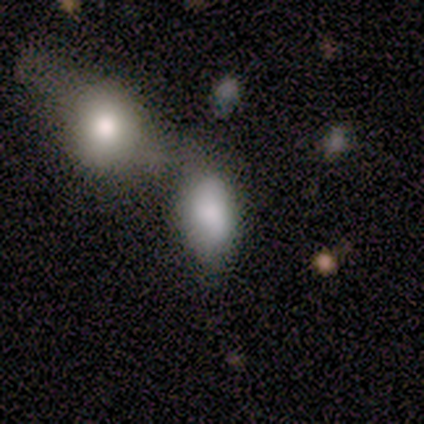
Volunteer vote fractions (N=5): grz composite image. It shows a smooth galaxy with no disk features (80%) that is in between round and cigar-shaped (100%). Merging: none (40%, tied with minor disturbance).